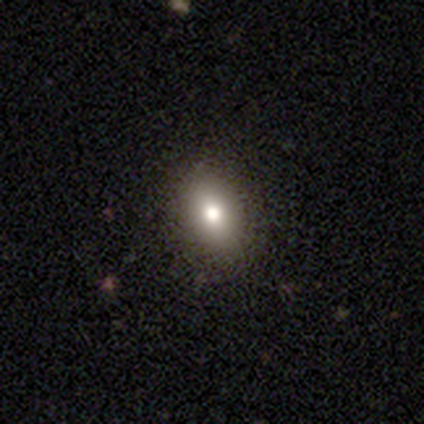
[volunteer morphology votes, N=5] Overall: smooth (80%). How rounded: in between (75%). Merging: none (50%, tied with minor disturbance).